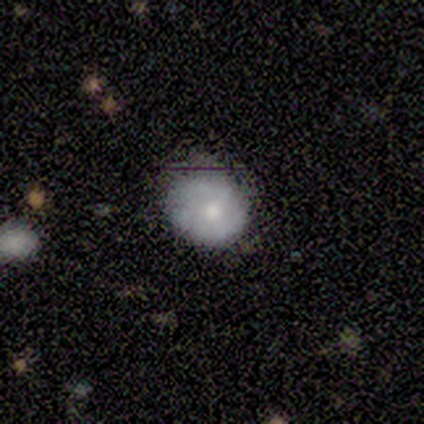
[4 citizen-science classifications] This is clearly a smooth galaxy (100%). How rounded: likely round (75%). Merging: likely none (75%).